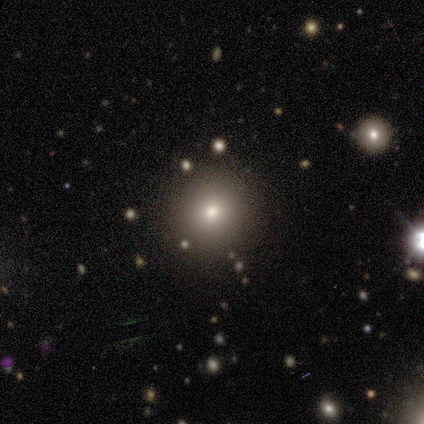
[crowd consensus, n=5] A smooth galaxy with no disk features (80%) that is round (100%).

Vote fractions:
- Smooth or featured? smooth: 80% / star or artifact: 20% / featured or disk: 0%
- How rounded? round: 100% / in between: 0% / cigar-shaped: 0%
- Merging? none: 100% / minor disturbance: 0% / major disturbance: 0% / merger: 0%